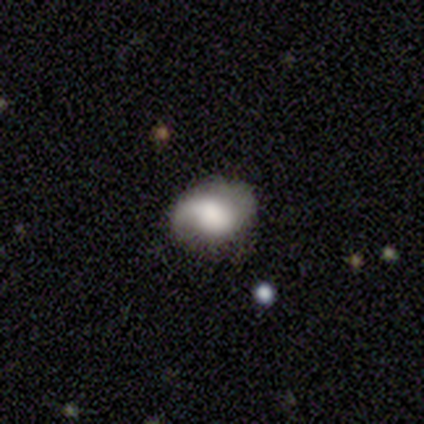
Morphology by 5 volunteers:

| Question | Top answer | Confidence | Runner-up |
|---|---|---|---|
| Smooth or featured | smooth | 60% | featured or disk (40%) |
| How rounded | in between | 100% | — |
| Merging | minor disturbance | 60% | none (40%) |